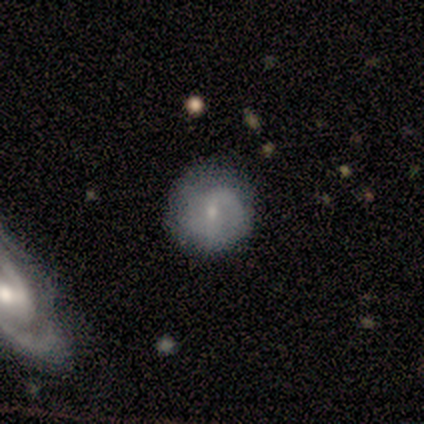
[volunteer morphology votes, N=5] Smooth or featured?
  - featured or disk: 80% *
  - smooth: 20%
  - star or artifact: 0%
Edge-on disk?
  - no: 100% *
  - yes: 0%
Bar?
  - no: 50% *
  - strong: 25%
  - weak: 25%
Spiral arms?
  - yes: 50% * (tied)
  - no: 50% * (tied)
Spiral winding?
  - tight: 50% * (tied)
  - loose: 50% * (tied)
  - medium: 0%
Spiral arm count?
  - 2: 100% *
  - 1: 0%
  - 3: 0%
  - 4: 0%
  - more than 4: 0%
  - can't tell: 0%
Bulge size?
  - small: 75% *
  - none: 25%
  - dominant: 0%
  - large: 0%
  - moderate: 0%
Merging?
  - none: 80% *
  - minor disturbance: 20%
  - major disturbance: 0%
  - merger: 0%